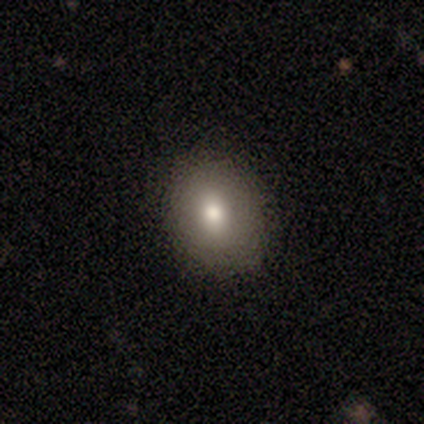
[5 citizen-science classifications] Smooth or featured? 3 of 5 (60%) said smooth. How rounded? 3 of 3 (100%) said in between. Merging? 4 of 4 (100%) said none.